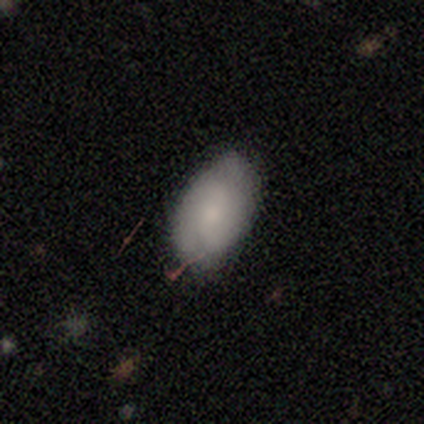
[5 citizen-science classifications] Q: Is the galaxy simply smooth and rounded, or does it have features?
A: smooth — 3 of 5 (60%).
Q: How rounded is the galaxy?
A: in between — 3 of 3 (100%).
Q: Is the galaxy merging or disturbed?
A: none — 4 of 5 (80%).